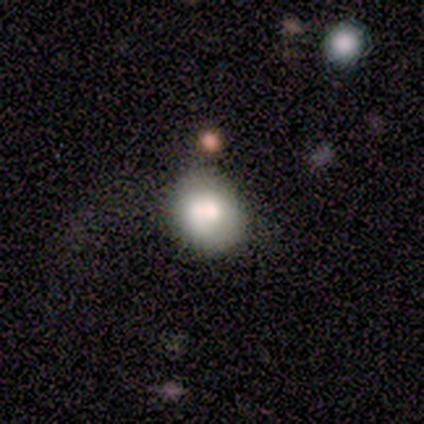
A smooth galaxy with no disk features (80%) that is round (75%).

Vote fractions:
- Smooth or featured? smooth: 80% / featured or disk: 20% / star or artifact: 0%
- How rounded? round: 75% / in between: 25% / cigar-shaped: 0%
- Merging? merger: 60% / none: 20% / minor disturbance: 20% / major disturbance: 0%